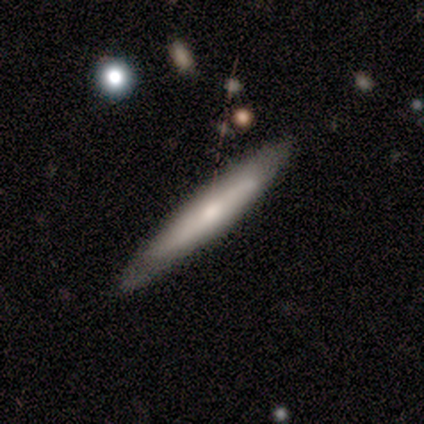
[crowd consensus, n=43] This is possibly a featured or disk galaxy (53%). It is likely viewed edge-on (78%). Edge-on bulge: possibly none (50%). Merging: likely none (76%).